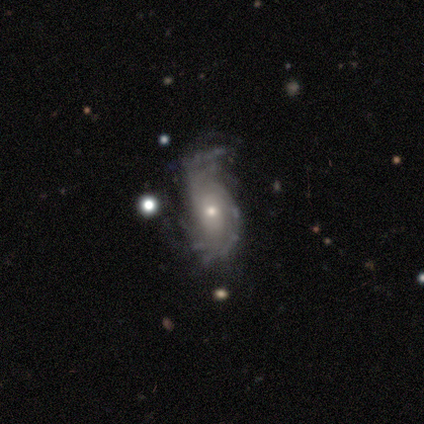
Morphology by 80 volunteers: Smooth or featured?
  - featured or disk: 85% *
  - smooth: 10%
  - star or artifact: 5%
Edge-on disk?
  - no: 97% *
  - yes: 3%
Bar?
  - no: 71% *
  - weak: 26%
  - strong: 3%
Spiral arms?
  - yes: 83% *
  - no: 17%
Spiral winding?
  - medium: 38% *
  - tight: 31%
  - loose: 31%
Spiral arm count?
  - can't tell: 53% *
  - 2: 24%
  - 4: 9%
  - more than 4: 9%
  - 3: 4%
  - 1: 2%
Bulge size?
  - small: 61% *
  - moderate: 36%
  - large: 3%
  - dominant: 0%
  - none: 0%
Merging?
  - none: 45% *
  - minor disturbance: 37%
  - major disturbance: 14%
  - merger: 4%